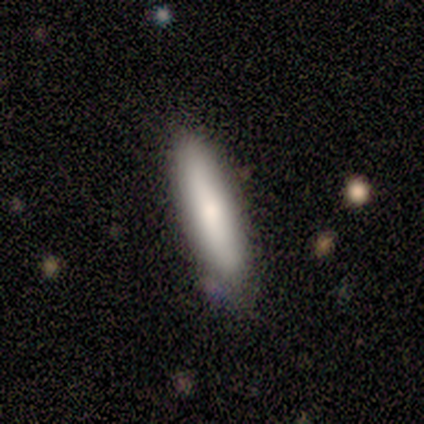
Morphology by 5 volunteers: smooth 80%, star or artifact 20%, featured or disk 0%. Down the decision tree: how rounded — in between (50%, tied with cigar-shaped); merging — none (75%).